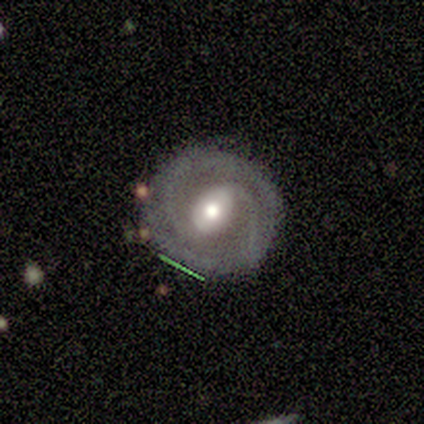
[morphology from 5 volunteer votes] featured or disk 100%, smooth 0%, star or artifact 0%. Down the decision tree: edge-on disk — no (100%); bar — weak (40%, tied with no); spiral arms — yes (100%); spiral arm count — 2 (100%); spiral winding — tight (60%); bulge size — moderate (100%); merging — none (80%).